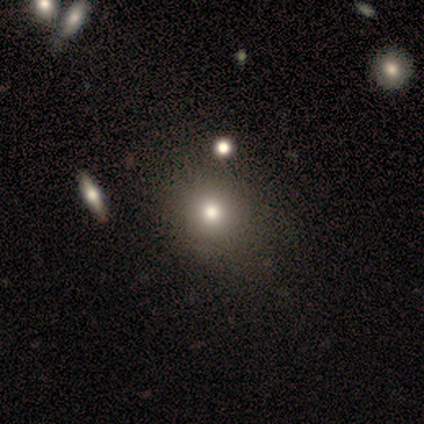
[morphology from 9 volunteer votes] type=smooth (100%); roundness=round (78%); merging=none (78%).